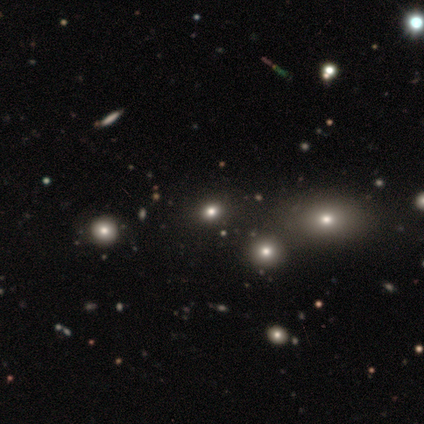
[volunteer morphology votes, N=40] type=star or artifact (45%).